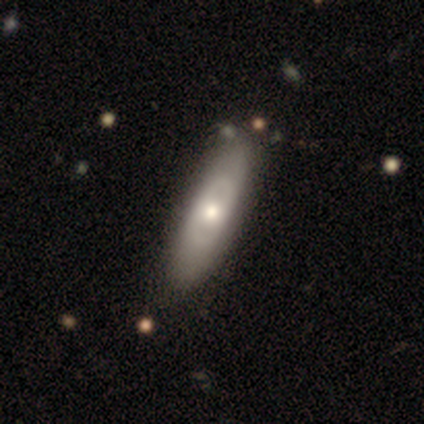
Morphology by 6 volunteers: smooth 50% (tied), featured or disk 50% (tied), star or artifact 0%. Down the decision tree: how rounded — in between (67%); merging — none (83%).